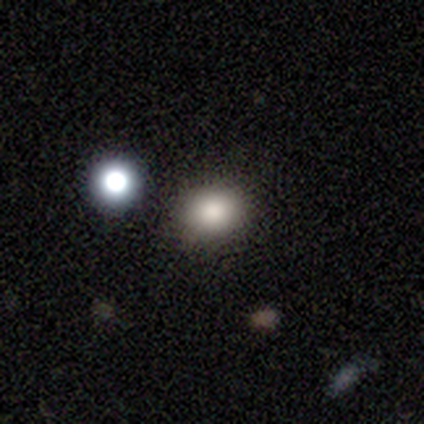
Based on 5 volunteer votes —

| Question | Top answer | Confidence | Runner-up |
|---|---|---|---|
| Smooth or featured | smooth | 80% | star or artifact (20%) |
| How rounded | in between | 75% | round (25%) |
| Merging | none | 100% | — |